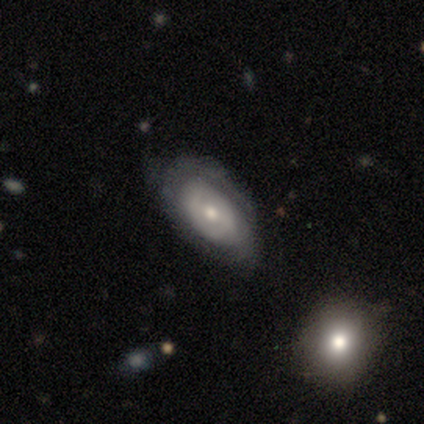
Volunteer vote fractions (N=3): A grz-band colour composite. It shows a featured or disk galaxy (67%) with a weak bar (50%, tied with no), tight (100%) spiral arms (100%) and a moderate central bulge (100%). Merging: none (67%).